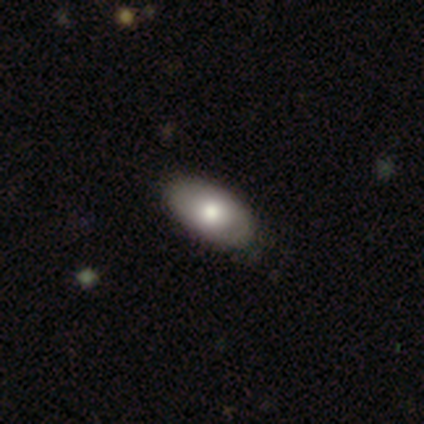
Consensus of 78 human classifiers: Smooth or featured: smooth — 65% (featured or disk — 31%)
How rounded: in between — 94% (cigar-shaped — 6%)
Merging: none — 51% (minor disturbance — 12%)